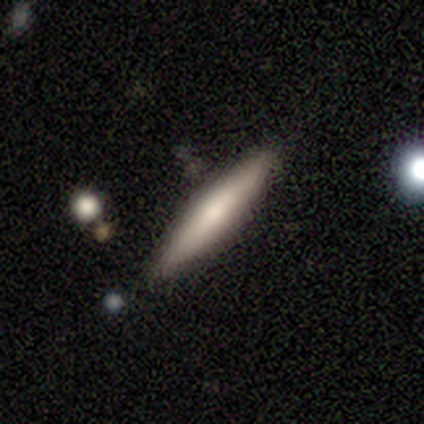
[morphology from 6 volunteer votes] smooth_or_featured: smooth (p=0.33) [tied with: featured or disk p=0.33, star or artifact p=0.33]
how_rounded: cigar-shaped (p=1.00)
merging: none (p=0.75) [alt: minor disturbance p=0.25]